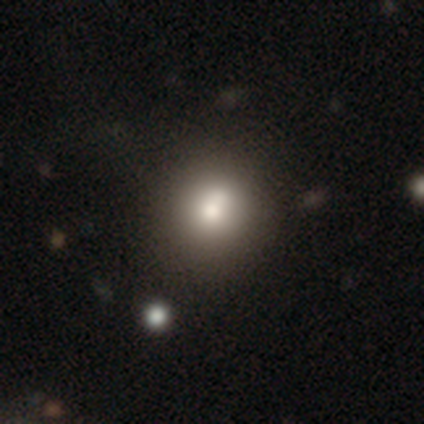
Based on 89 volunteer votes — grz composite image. It shows a smooth galaxy with no disk features (76%) that is round (84%). Merging: none (70%).